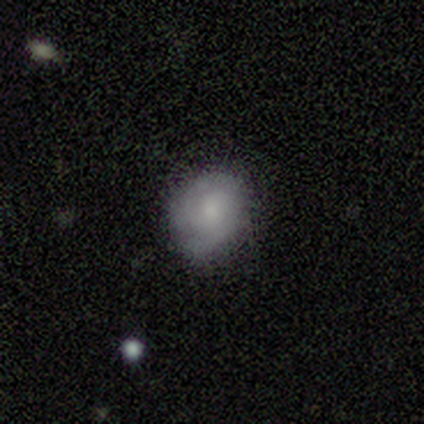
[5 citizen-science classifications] smooth-or-featured: smooth: 80% | featured or disk: 20% | star or artifact: 0%
  how-rounded: round: 100% | in between: 0% | cigar-shaped: 0%
  merging: none: 80% | minor disturbance: 20% | major disturbance: 0% | merger: 0%